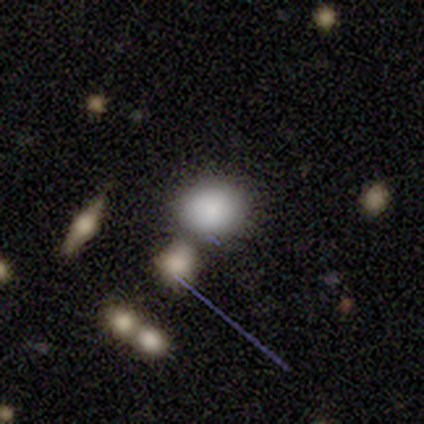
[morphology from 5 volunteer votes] Smooth or featured? smooth (100%)
How rounded? round (80%)
Merging? none (60%)